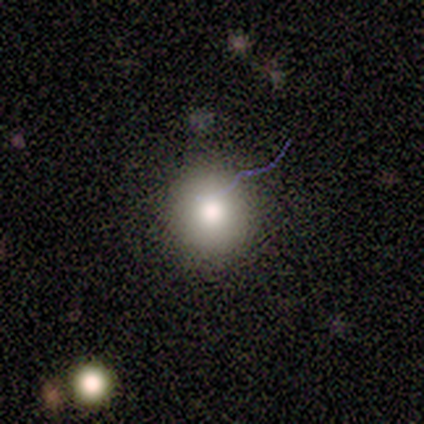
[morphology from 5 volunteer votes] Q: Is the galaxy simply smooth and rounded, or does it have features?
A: smooth — 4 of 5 (80%).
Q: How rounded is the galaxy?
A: round — 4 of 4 (100%).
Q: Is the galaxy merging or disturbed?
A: none — 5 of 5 (100%).